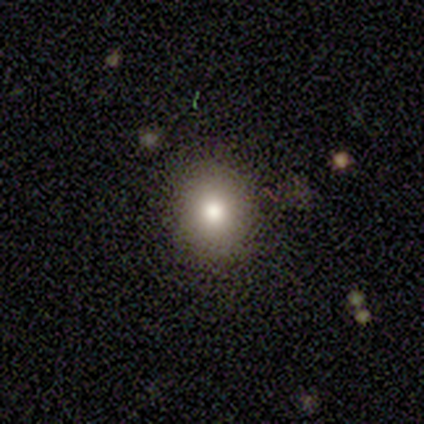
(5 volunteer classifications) Smooth or featured? smooth (80%)
How rounded? in between (75%)
Merging? none (100%)